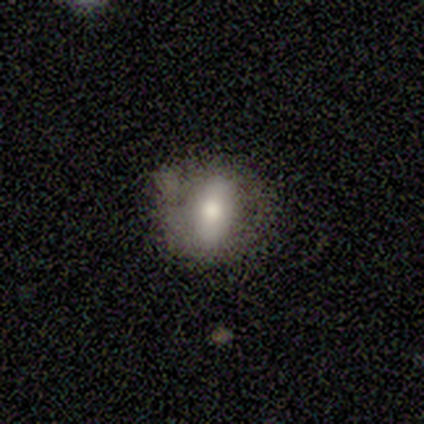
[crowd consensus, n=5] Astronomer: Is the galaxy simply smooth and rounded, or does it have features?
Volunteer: smooth — 60%.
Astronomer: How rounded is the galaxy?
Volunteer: in between — 67%.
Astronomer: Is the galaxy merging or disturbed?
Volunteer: none — 75%.